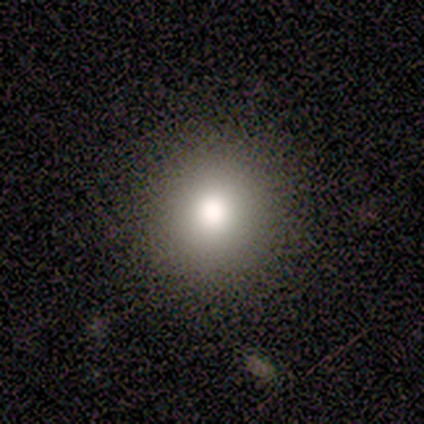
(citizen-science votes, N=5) Morphology: type=smooth (100%); roundness=round (100%); merging=none (100%).